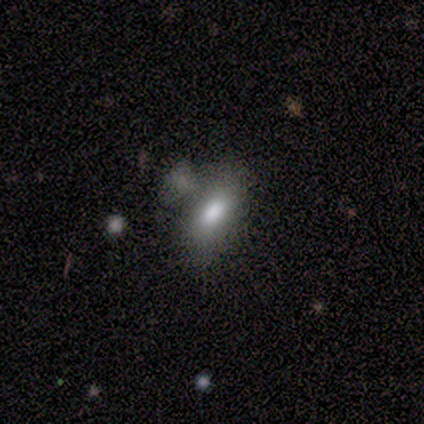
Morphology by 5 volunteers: Q: Smooth or featured?
A: smooth (100%)
Q: How rounded?
A: in between (80%); runner-up: cigar-shaped (20%)
Q: Merging?
A: none (40%); tied with: merger (40%)